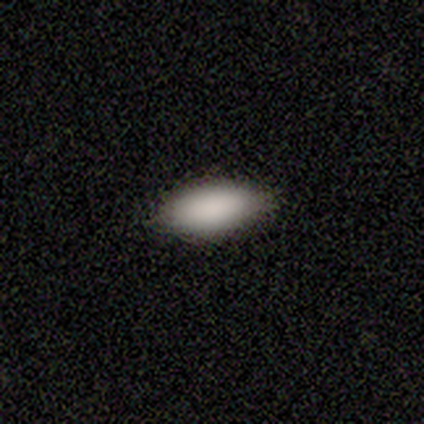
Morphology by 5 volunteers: Consensus on every question: smooth or featured — smooth (100%); how rounded — in between (100%); merging — none (100%).